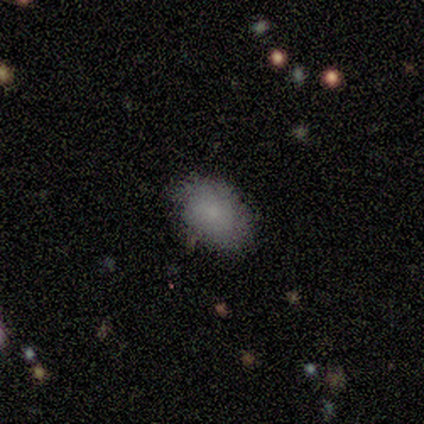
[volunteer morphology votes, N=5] Volunteers were most divided on "how rounded": in between: 75%, round: 25%, cigar-shaped: 0%. More confident: smooth or featured — smooth (80%); merging — none (75%).